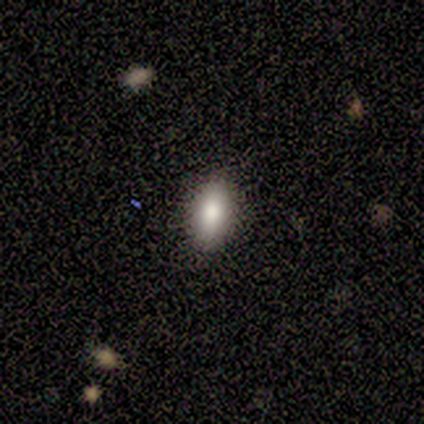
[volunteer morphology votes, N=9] Volunteers were most divided on "smooth or featured": smooth: 67%, star or artifact: 22%, featured or disk: 11%. More confident: merging — none (100%); how rounded — in between (67%).